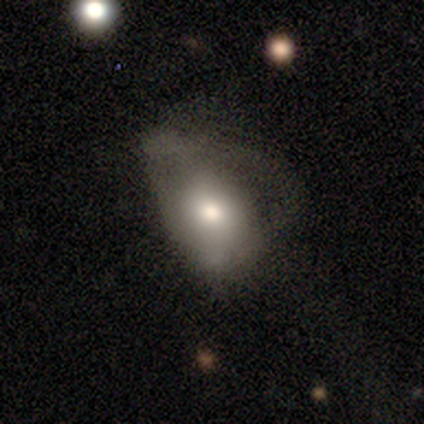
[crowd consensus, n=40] This appears to be a smooth galaxy with no disk features (57%) that is in between round and cigar-shaped (87%). Merging: major disturbance (60%).